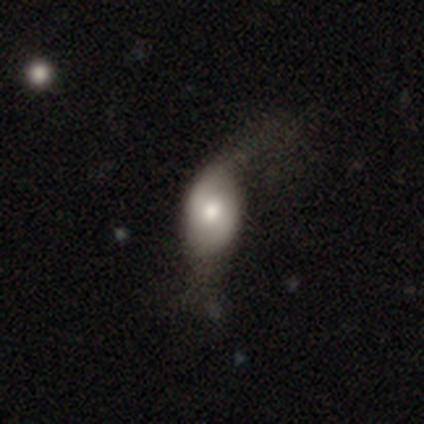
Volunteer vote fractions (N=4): Smooth or featured?
  - smooth: 75% *
  - featured or disk: 25%
  - star or artifact: 0%
How rounded?
  - round: 33% * (tied)
  - in between: 33% * (tied)
  - cigar-shaped: 33% * (tied)
Merging?
  - minor disturbance: 50% *
  - none: 25%
  - major disturbance: 25%
  - merger: 0%